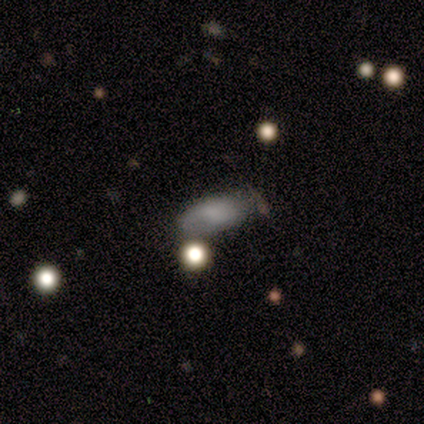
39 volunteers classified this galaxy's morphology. Smooth or featured?
  - smooth: 67% *
  - featured or disk: 18%
  - star or artifact: 15%
How rounded?
  - in between: 92% *
  - cigar-shaped: 8%
  - round: 0%
Merging?
  - none: 64% *
  - minor disturbance: 33%
  - major disturbance: 3%
  - merger: 0%